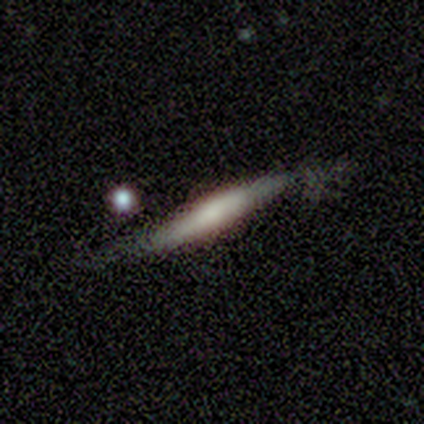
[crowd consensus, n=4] smooth 50% (tied), featured or disk 50% (tied), star or artifact 0%. Down the decision tree: how rounded — cigar-shaped (100%); merging — minor disturbance (50%).